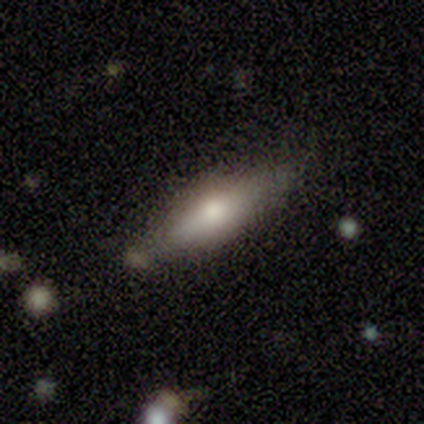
Morphology: type=smooth (50%, tied with featured or disk); roundness=in between (67%); merging=none (83%).